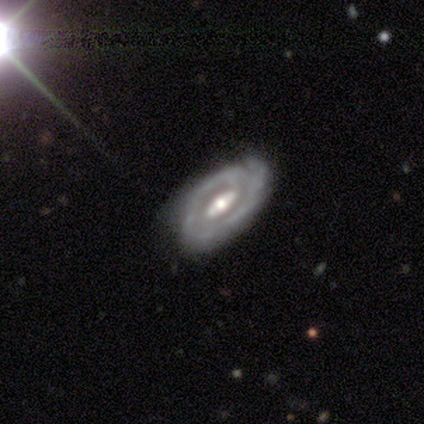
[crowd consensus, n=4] Smooth or featured: featured or disk — 100%
Edge-on disk: no — 100%
Bar: strong — 50% (weak — 25%)
Spiral arms: yes — 100%
Spiral winding: tight — 50% (tied with medium — 50%)
Spiral arm count: 2 — 50% (tied with can't tell — 50%)
Bulge size: moderate — 100%
Merging: none — 50% (minor disturbance — 25%)